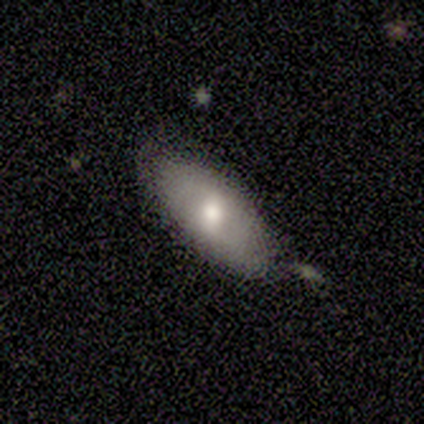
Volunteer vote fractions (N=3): A featured or disk galaxy (67%) with a weak bar (50%, tied with no), no spiral arms (100%) and a moderate central bulge (100%). Merging: none (67%).